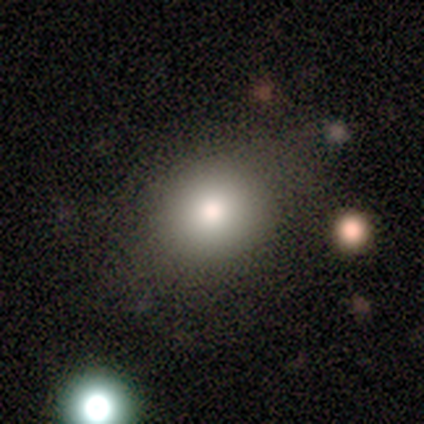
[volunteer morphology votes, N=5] This appears to be a smooth galaxy with no disk features (80%) that is round (100%). Merging: none (100%).